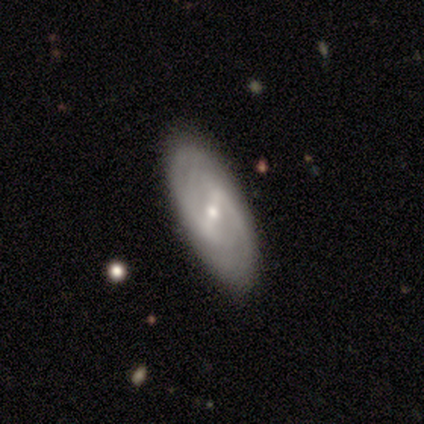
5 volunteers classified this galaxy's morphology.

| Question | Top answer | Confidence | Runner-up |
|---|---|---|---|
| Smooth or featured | featured or disk | 100% | — |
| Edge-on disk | no | 100% | — |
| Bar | strong | 40% | tied: weak (40%) |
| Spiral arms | yes | 80% | no (20%) |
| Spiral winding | tight | 50% | tied: medium (50%) |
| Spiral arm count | can't tell | 75% | 2 (25%) |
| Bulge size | small | 60% | moderate (20%) |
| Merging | none | 80% | minor disturbance (20%) |